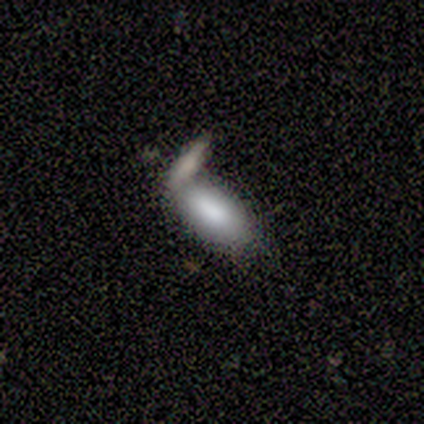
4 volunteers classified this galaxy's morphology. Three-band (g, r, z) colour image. It shows a smooth galaxy with no disk features (75%) that is in between round and cigar-shaped (67%). Merging: minor disturbance (33%, tied with major disturbance and merger).